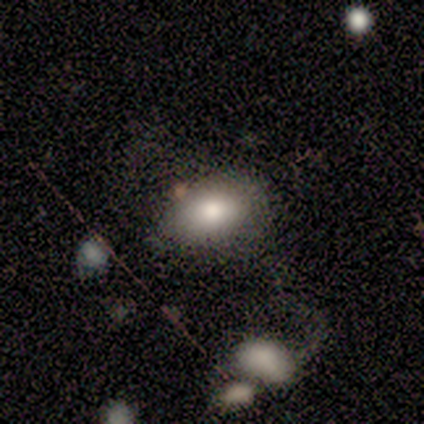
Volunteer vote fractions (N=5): Smooth or featured?
  - smooth: 80% *
  - featured or disk: 20%
  - star or artifact: 0%
How rounded?
  - in between: 100% *
  - round: 0%
  - cigar-shaped: 0%
Merging?
  - none: 40% * (tied)
  - major disturbance: 40% * (tied)
  - minor disturbance: 20%
  - merger: 0%